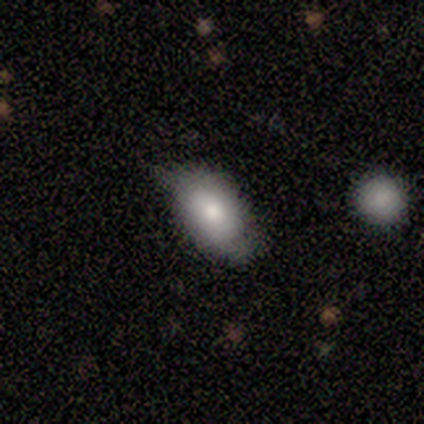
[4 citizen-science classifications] Smooth or featured: smooth — 100%
How rounded: in between — 100%
Merging: none — 50% (tied with minor disturbance — 50%)